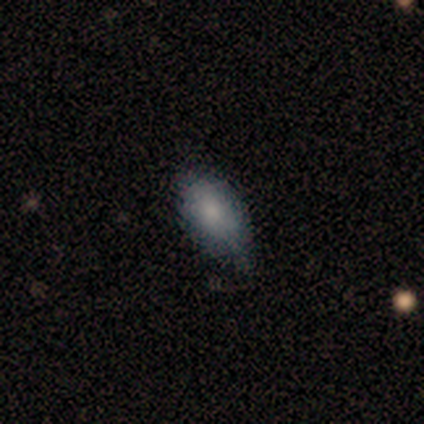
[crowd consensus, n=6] This appears to be a smooth galaxy with no disk features (100%) that is in between round and cigar-shaped (100%). Merging: none (67%).